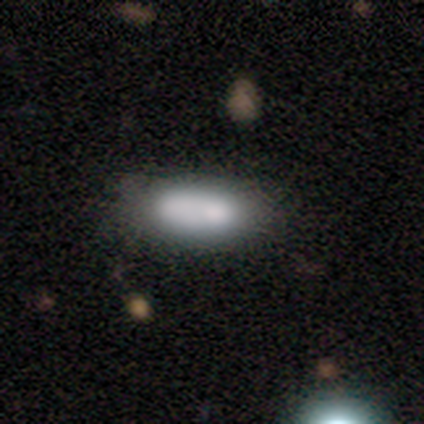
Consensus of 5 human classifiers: This appears to be a smooth galaxy with no disk features (60%) that is in between round and cigar-shaped (100%). Merging: none (75%).